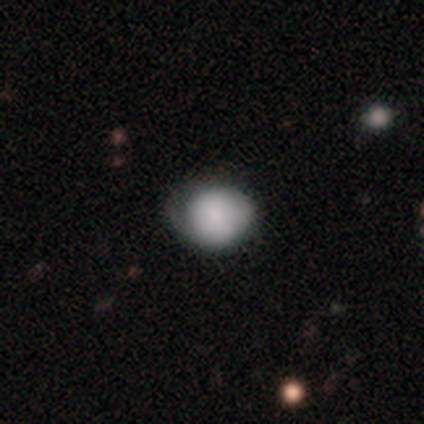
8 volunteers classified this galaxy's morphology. This is likely a smooth galaxy (75%). How rounded: clearly round (100%). Merging: possibly minor disturbance (57%).